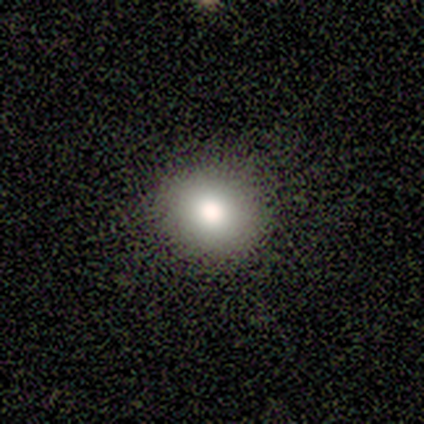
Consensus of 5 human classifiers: Volunteers were most divided on "merging": none: 75%, major disturbance: 25%, minor disturbance: 0%, merger: 0%. More confident: how rounded — round (100%); smooth or featured — smooth (80%).